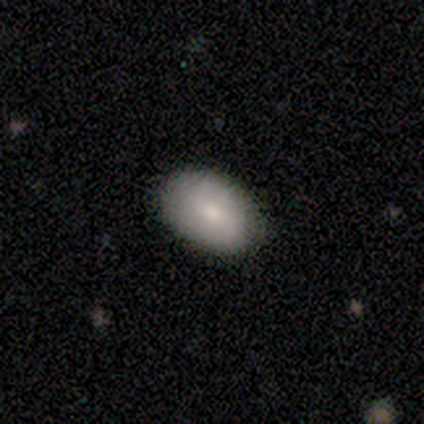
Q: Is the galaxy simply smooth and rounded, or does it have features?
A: smooth — 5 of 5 (100%).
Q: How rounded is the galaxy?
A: in between — 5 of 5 (100%).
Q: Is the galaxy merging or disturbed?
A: none — 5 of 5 (100%).